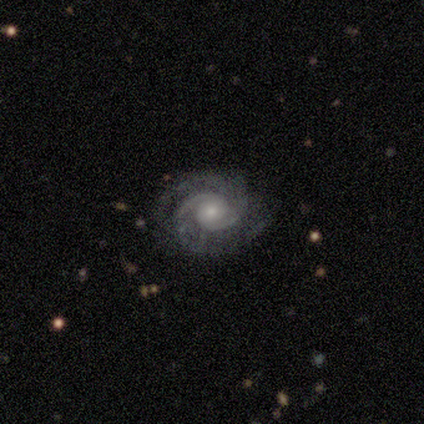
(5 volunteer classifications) Volunteers were most divided on "spiral winding": tight: 60%, medium: 40%, loose: 0%. More confident: smooth or featured — featured or disk (100%); edge-on disk — no (100%); spiral arms — yes (100%); bar — no (80%); spiral arm count — 2 (80%); merging — none (80%); bulge size — small (60%).